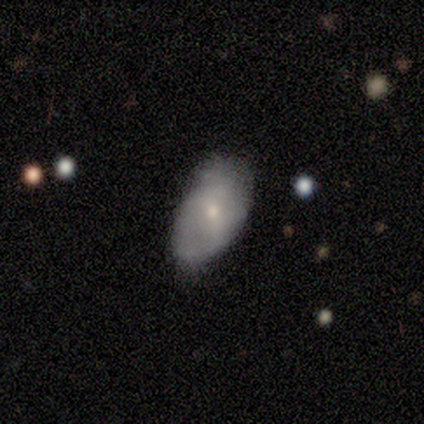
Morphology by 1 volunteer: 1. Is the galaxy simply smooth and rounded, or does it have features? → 100% smooth, 0% featured or disk, 0% star or artifact.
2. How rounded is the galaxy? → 100% in between, 0% round, 0% cigar-shaped.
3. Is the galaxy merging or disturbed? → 100% none, 0% minor disturbance, 0% major disturbance, 0% merger.